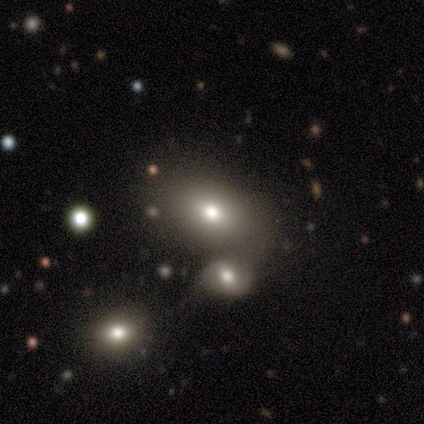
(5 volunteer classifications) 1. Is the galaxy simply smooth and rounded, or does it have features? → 80% smooth, 20% featured or disk, 0% star or artifact.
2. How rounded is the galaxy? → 100% in between, 0% round, 0% cigar-shaped.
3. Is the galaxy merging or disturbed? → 60% merger, 40% none, 0% minor disturbance, 0% major disturbance.